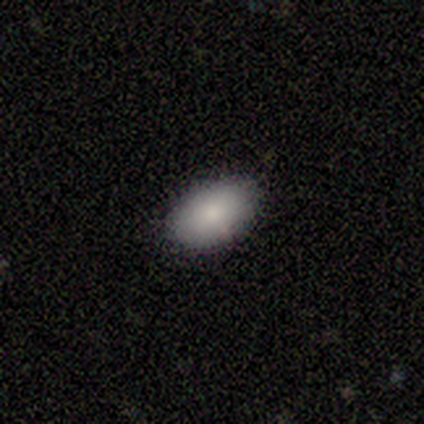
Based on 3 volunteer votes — Q: Smooth or featured?
A: smooth (100%)
Q: How rounded?
A: in between (100%)
Q: Merging?
A: none (100%)